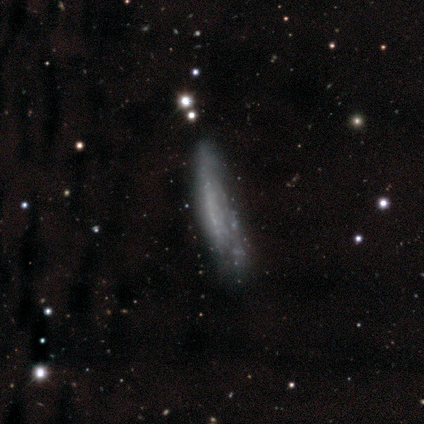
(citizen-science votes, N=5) Overall: featured or disk (60%; smooth 40%). Edge-on disk: no (67%; yes 33%). Bar: weak (50%, tied with no). Spiral arms: yes (50%, tied with no). Spiral arm count: can't tell (100%). Spiral winding: tight (100%). Bulge size: small (50%, tied with none). Merging: none (40%, tied with minor disturbance).